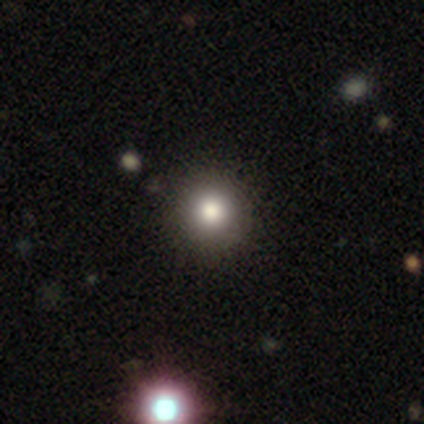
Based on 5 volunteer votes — Overall: smooth (60%; featured or disk 20%). How rounded: round (100%). Merging: none (100%).